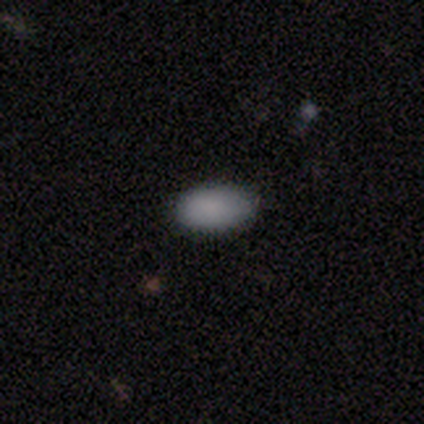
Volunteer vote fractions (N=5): Q: Smooth or featured?
A: smooth (100%)
Q: How rounded?
A: in between (80%); runner-up: round (20%)
Q: Merging?
A: none (100%)